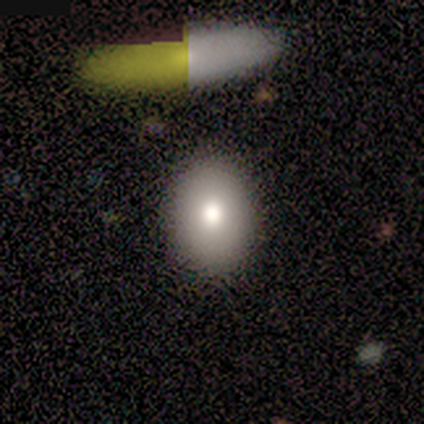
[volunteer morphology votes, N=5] Smooth or featured?
  - smooth: 80% *
  - star or artifact: 20%
  - featured or disk: 0%
How rounded?
  - in between: 75% *
  - round: 25%
  - cigar-shaped: 0%
Merging?
  - none: 50% *
  - minor disturbance: 25%
  - major disturbance: 25%
  - merger: 0%